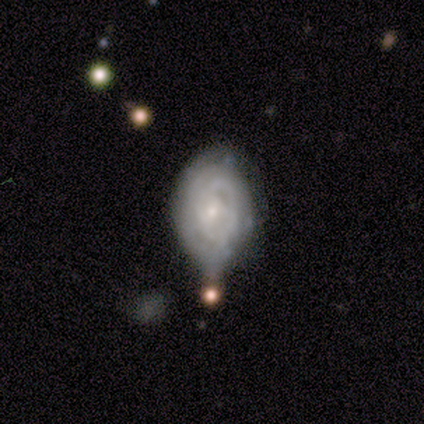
Volunteers were most divided on "merging": minor disturbance: 37%, none: 23%, merger: 23%, major disturbance: 17%. More confident: edge-on disk — no (100%); smooth or featured — featured or disk (81%); spiral arms — yes (73%); spiral winding — tight (63%); bulge size — small (62%); bar — no (62%); spiral arm count — can't tell (53%).